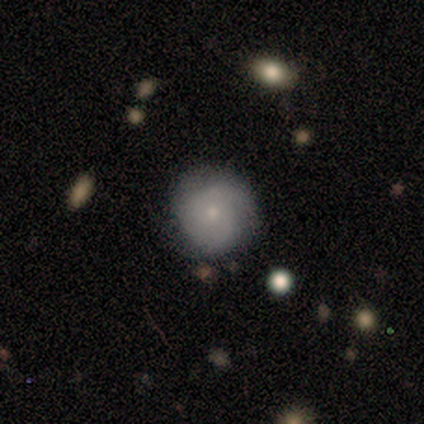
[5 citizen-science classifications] smooth_or_featured: featured or disk (p=0.60) [alt: smooth p=0.40]
disk_edge_on: no (p=1.00)
bar: no (p=1.00)
has_spiral_arms: yes (p=1.00)
spiral_winding: tight (p=0.67) [alt: medium p=0.33]
spiral_arm_count: 2 (p=0.67) [alt: 4 p=0.33]
bulge_size: small (p=1.00)
merging: none (p=0.80) [alt: minor disturbance p=0.20]